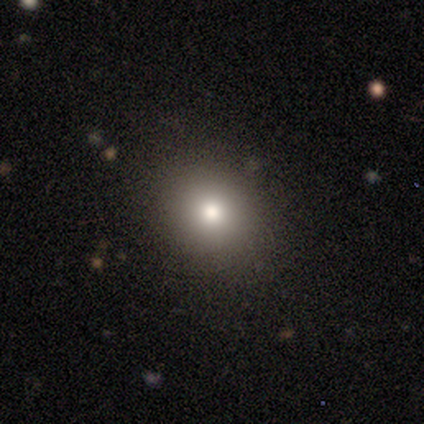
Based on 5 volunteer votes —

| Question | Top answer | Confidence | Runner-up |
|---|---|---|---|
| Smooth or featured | smooth | 60% | star or artifact (40%) |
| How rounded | round | 100% | — |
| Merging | none | 67% | major disturbance (33%) |